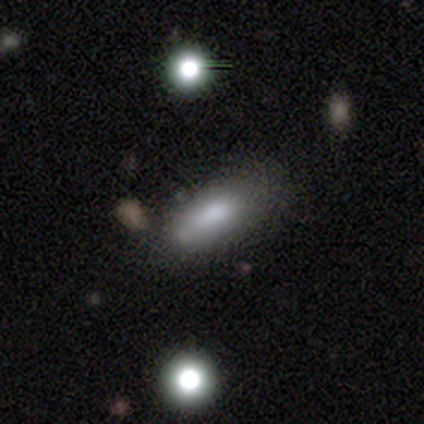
Volunteers were most divided on "smooth or featured": smooth: 59%, featured or disk: 28%, star or artifact: 13%. More confident: how rounded — in between (65%); merging — none (62%).